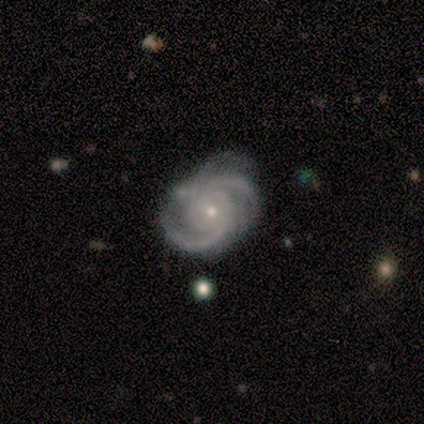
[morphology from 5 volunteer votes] A featured or disk galaxy (100%) with no bar (100%), 3 (60%) tight (60%) spiral arms (100%) and a small central bulge (80%).

Vote fractions:
- Smooth or featured? featured or disk: 100% / smooth: 0% / star or artifact: 0%
- Edge-on disk? no: 100% / yes: 0%
- Bar? no: 100% / strong: 0% / weak: 0%
- Spiral arms? yes: 100% / no: 0%
- Spiral winding? tight: 60% / medium: 40% / loose: 0%
- Spiral arm count? 3: 60% / 4: 20% / can't tell: 20% / 1: 0% / 2: 0% / more than 4: 0%
- Bulge size? small: 80% / moderate: 20% / dominant: 0% / large: 0% / none: 0%
- Merging? none: 80% / minor disturbance: 20% / major disturbance: 0% / merger: 0%